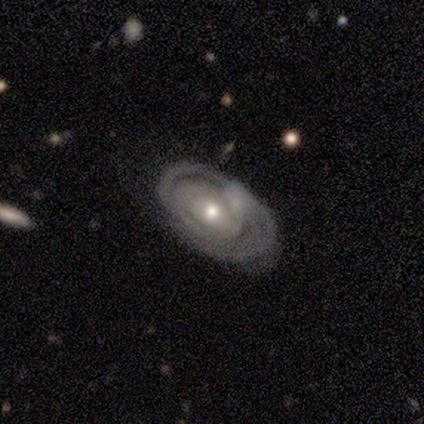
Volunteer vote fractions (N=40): Volunteers were most divided on "spiral arm count": 2: 42%, can't tell: 33%, 1: 12%, 3: 4%, 4: 4%, more than 4: 4%. More confident: edge-on disk — no (97%); smooth or featured — featured or disk (90%); spiral winding — tight (88%); spiral arms — yes (69%); bulge size — moderate (66%); bar — no (63%); merging — none (62%).